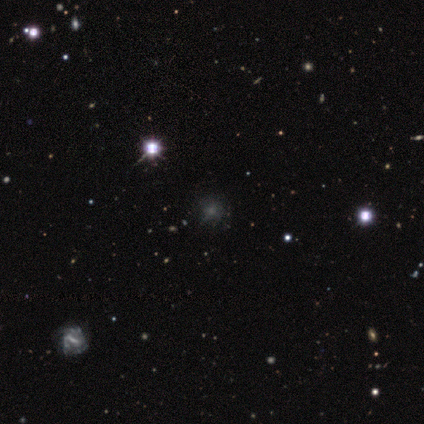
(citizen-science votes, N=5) This is likely a star or artifact rather than a galaxy (60%).